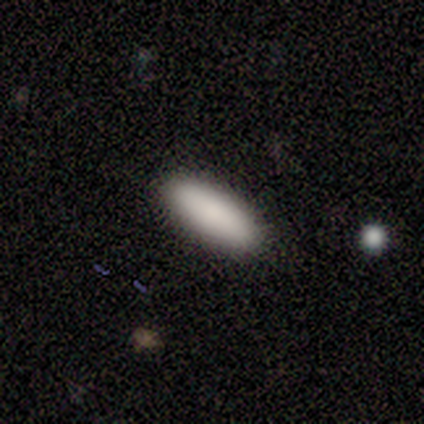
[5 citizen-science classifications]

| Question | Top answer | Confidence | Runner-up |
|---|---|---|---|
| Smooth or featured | smooth | 100% | — |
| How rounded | in between | 60% | cigar-shaped (40%) |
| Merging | none | 100% | — |